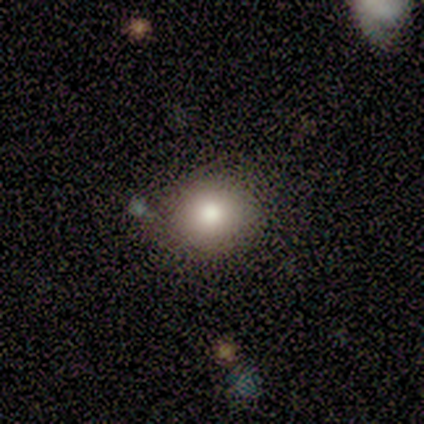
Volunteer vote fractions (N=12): Smooth or featured?
  - smooth: 83% *
  - featured or disk: 8%
  - star or artifact: 8%
How rounded?
  - round: 70% *
  - in between: 30%
  - cigar-shaped: 0%
Merging?
  - none: 91% *
  - major disturbance: 9%
  - minor disturbance: 0%
  - merger: 0%